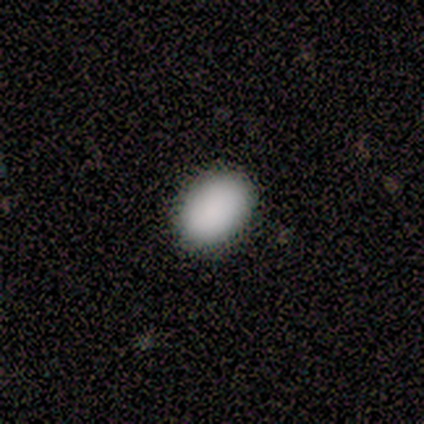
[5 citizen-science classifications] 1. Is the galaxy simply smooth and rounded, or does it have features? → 80% smooth, 20% star or artifact, 0% featured or disk.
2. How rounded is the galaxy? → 100% in between, 0% round, 0% cigar-shaped.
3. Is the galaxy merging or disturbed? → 75% none, 25% minor disturbance, 0% major disturbance, 0% merger.